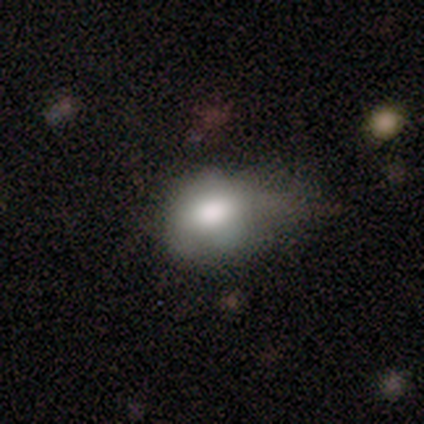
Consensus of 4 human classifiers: This is clearly a smooth galaxy (100%). How rounded: possibly round (50%, tied with in between). Merging: possibly none (50%, tied with major disturbance).